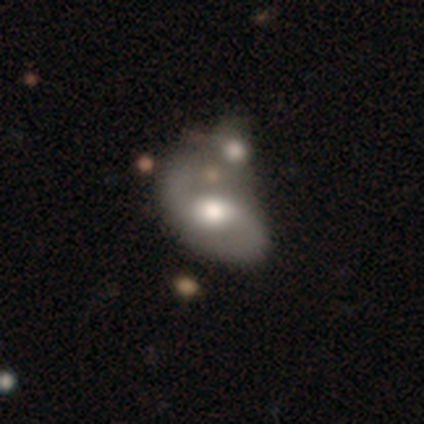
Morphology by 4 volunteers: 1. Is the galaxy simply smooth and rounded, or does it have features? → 75% featured or disk, 25% star or artifact, 0% smooth.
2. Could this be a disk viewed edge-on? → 100% no, 0% yes.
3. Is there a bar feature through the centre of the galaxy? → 67% weak, 33% no, 0% strong.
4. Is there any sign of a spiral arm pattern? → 67% yes, 33% no.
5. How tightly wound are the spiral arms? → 50% medium (tied), 50% loose (tied), 0% tight.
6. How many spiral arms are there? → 100% 2, 0% 1, 0% 3, 0% 4, 0% more than 4, 0% can't tell.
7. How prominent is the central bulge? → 67% large, 33% moderate, 0% dominant, 0% small, 0% none.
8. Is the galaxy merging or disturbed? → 67% merger, 33% minor disturbance, 0% none, 0% major disturbance.